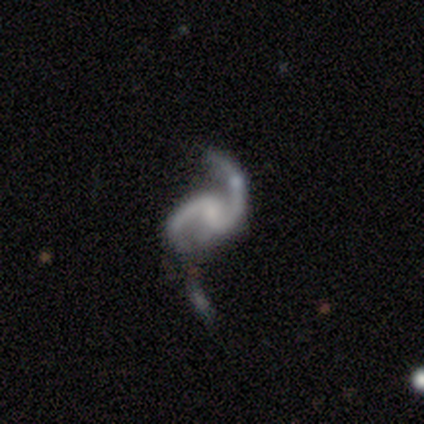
This is likely a featured or disk galaxy (75%). It is clearly not viewed edge-on (100%). Bar: likely no (67%). Spiral arm pattern: clearly yes (100%). Spiral arm count: clearly 2 (100%). Spiral winding: likely loose (67%). Central bulge: likely none (67%). Merging: likely none (67%).